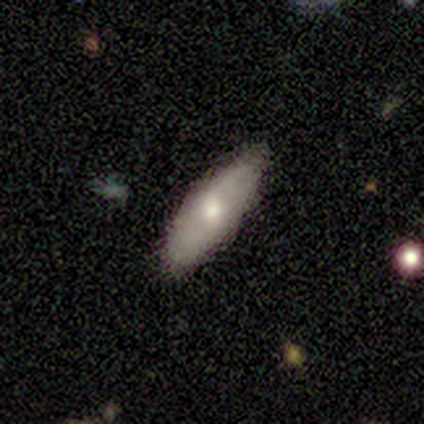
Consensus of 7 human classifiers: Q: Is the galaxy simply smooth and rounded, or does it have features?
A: smooth — 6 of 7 (86%).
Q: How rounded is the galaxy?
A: in between — 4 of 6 (67%).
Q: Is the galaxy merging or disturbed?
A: none — 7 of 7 (100%).